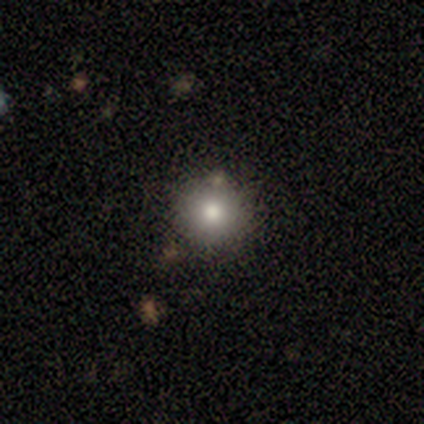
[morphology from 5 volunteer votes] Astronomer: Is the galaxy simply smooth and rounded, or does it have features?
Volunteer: smooth — 80%.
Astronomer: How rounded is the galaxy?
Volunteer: round — 75%.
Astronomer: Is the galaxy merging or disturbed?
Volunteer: none — 60% (runner-up: merger, 40%).